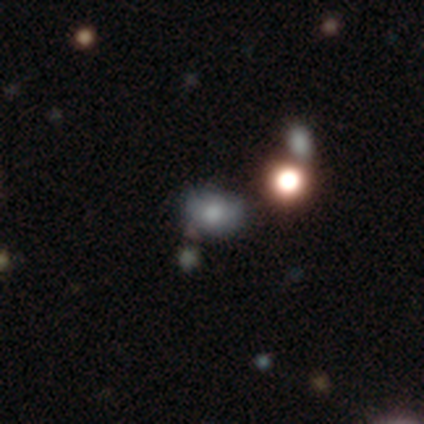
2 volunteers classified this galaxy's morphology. This is clearly a smooth galaxy (100%). How rounded: possibly round (50%, tied with in between). Merging: clearly none (100%).